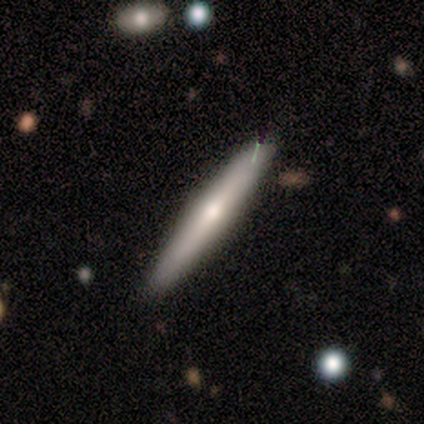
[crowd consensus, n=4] Morphology: type=smooth (75%); roundness=cigar-shaped (100%); merging=none (100%).